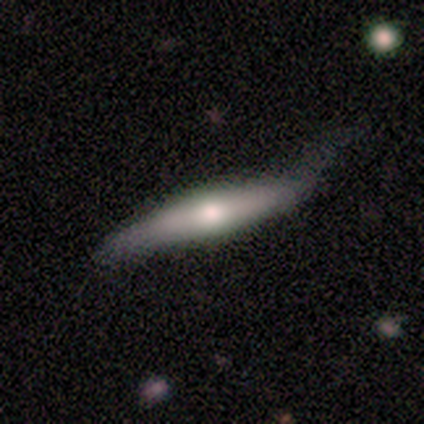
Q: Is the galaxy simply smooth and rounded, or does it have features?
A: featured or disk — 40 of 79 (51%).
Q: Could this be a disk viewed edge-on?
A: yes — 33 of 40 (82%).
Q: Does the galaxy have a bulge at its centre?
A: rounded — 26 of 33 (79%).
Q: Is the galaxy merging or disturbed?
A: minor disturbance — 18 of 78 (23%).